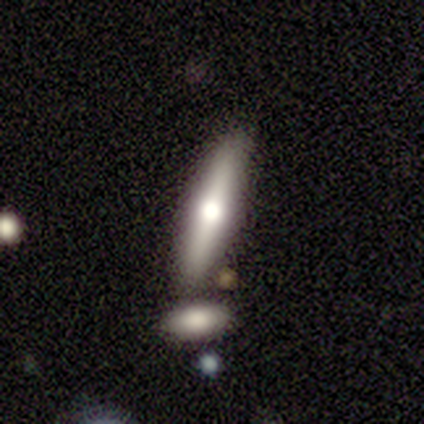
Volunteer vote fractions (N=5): Smooth or featured?
  - featured or disk: 60% *
  - smooth: 40%
  - star or artifact: 0%
Edge-on disk?
  - yes: 100% *
  - no: 0%
Edge-on bulge?
  - rounded: 100% *
  - boxy: 0%
  - none: 0%
Merging?
  - none: 60% *
  - minor disturbance: 40%
  - major disturbance: 0%
  - merger: 0%